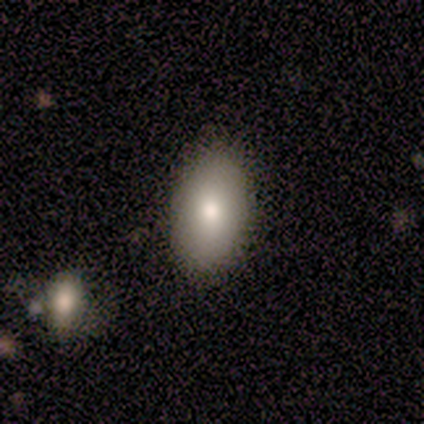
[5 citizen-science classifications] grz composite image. It shows a smooth galaxy with no disk features (80%) that is in between round and cigar-shaped (100%). Merging: none (100%).